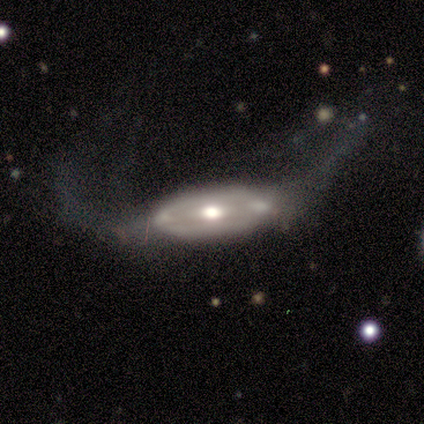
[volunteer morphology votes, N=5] smooth_or_featured: featured or disk (p=0.80) [alt: smooth p=0.20]
disk_edge_on: no (p=0.75) [alt: yes p=0.25]
bar: no (p=1.00)
has_spiral_arms: yes (p=0.67) [alt: no p=0.33]
spiral_winding: medium (p=1.00)
spiral_arm_count: 2 (p=1.00)
bulge_size: moderate (p=0.67) [alt: large p=0.33]
merging: none (p=0.40) [tied with: merger p=0.40]